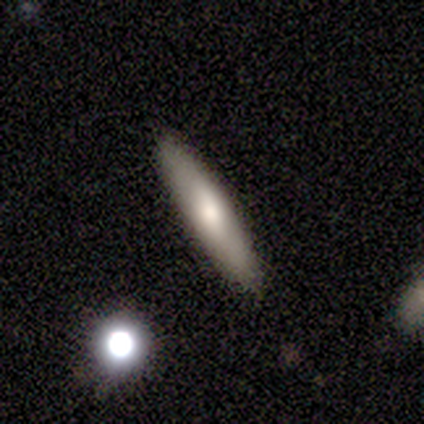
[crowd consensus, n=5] This is clearly a smooth galaxy (80%). How rounded: clearly cigar-shaped (100%). Merging: clearly none (80%).